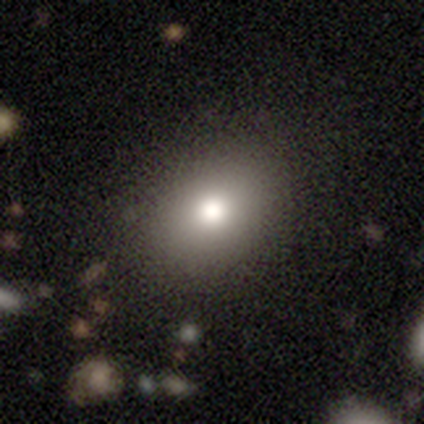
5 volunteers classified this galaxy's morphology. A smooth galaxy with no disk features (80%) that is in between round and cigar-shaped (100%).

Vote fractions:
- Smooth or featured? smooth: 80% / featured or disk: 20% / star or artifact: 0%
- How rounded? in between: 100% / round: 0% / cigar-shaped: 0%
- Merging? none: 100% / minor disturbance: 0% / major disturbance: 0% / merger: 0%